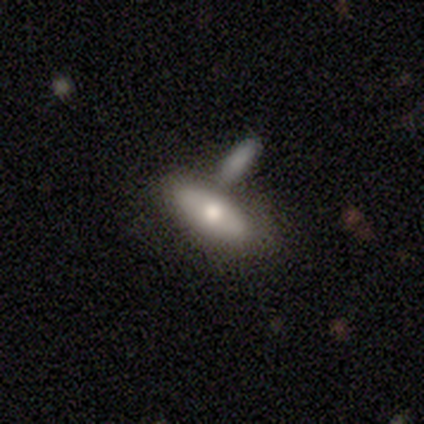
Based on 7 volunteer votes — Smooth or featured: smooth — 57% (featured or disk — 43%)
How rounded: in between — 100%
Merging: none — 71% (minor disturbance — 14%)